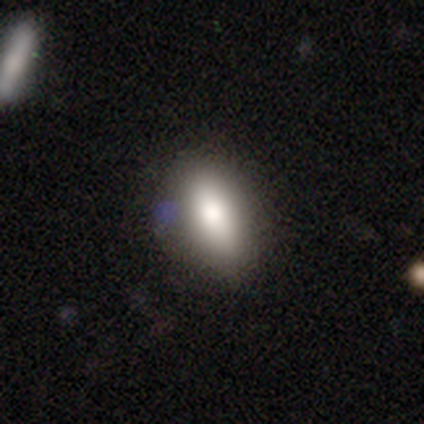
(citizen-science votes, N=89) A smooth galaxy with no disk features (66%) that is in between round and cigar-shaped (86%). Merging: none (78%).